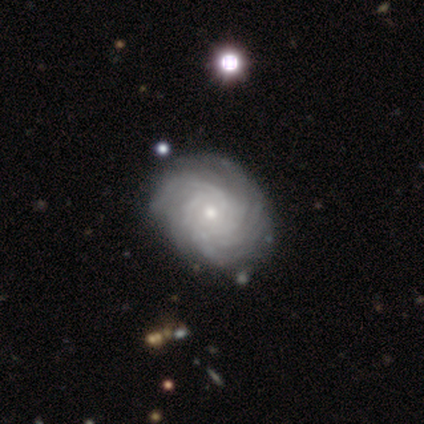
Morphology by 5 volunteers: Smooth or featured? featured or disk (100%)
Edge-on disk? no (100%)
Bar? no (60%)
Spiral arms? yes (100%)
Spiral winding? tight (80%)
Spiral arm count? more than 4 (40%, tied with can't tell)
Bulge size? small (60%)
Merging? none (60%)